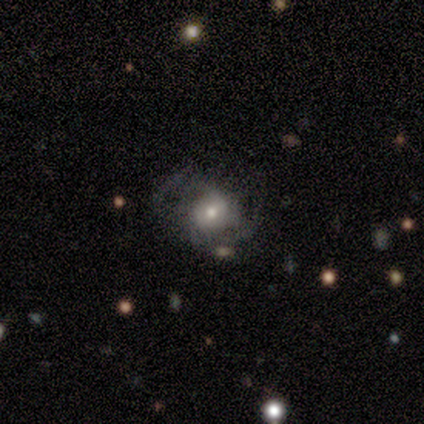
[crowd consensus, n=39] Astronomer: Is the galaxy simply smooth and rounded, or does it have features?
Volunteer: featured or disk — 69%.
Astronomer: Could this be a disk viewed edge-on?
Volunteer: no — 100%.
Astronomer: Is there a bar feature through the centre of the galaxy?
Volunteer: no — 85%.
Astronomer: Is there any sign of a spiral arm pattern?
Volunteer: yes — 70%.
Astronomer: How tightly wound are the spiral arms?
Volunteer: loose — 47% (runner-up: medium, 37%).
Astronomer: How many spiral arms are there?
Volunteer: can't tell — 58%.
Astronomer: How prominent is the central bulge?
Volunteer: small — 48% (runner-up: moderate, 41%).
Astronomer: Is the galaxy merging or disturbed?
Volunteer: none — 40% (runner-up: minor disturbance, 31%).